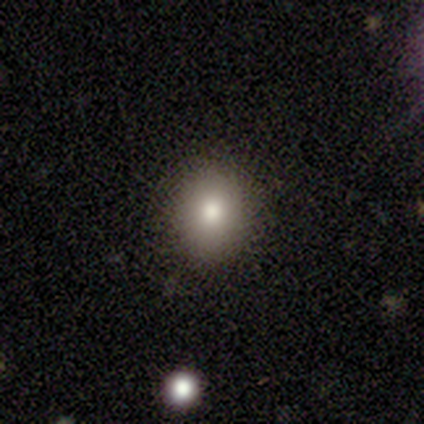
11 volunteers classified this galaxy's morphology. Smooth or featured? smooth (73%)
How rounded? round (62%)
Merging? none (89%)